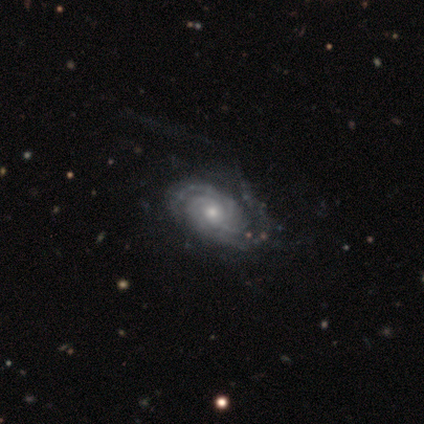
smooth_or_featured: featured or disk (p=1.00)
disk_edge_on: no (p=1.00)
bar: no (p=1.00)
has_spiral_arms: yes (p=1.00)
spiral_winding: tight (p=1.00)
spiral_arm_count: 2 (p=0.33) [tied with: 3 p=0.33, more than 4 p=0.33]
bulge_size: small (p=1.00)
merging: minor disturbance (p=1.00)